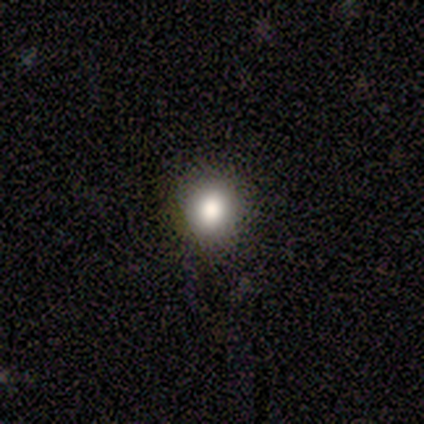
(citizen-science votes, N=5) Smooth or featured?
  - smooth: 40% * (tied)
  - star or artifact: 40% * (tied)
  - featured or disk: 20%
How rounded?
  - round: 100% *
  - in between: 0%
  - cigar-shaped: 0%
Merging?
  - none: 67% *
  - minor disturbance: 33%
  - major disturbance: 0%
  - merger: 0%